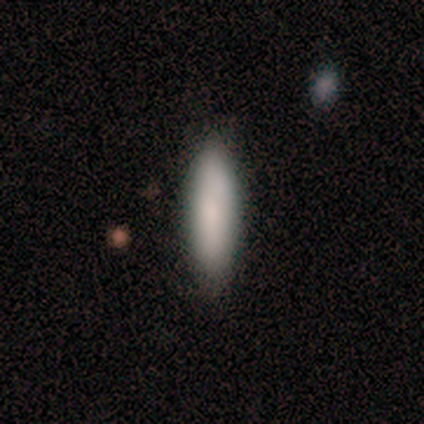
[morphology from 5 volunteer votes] This appears to be a smooth galaxy with no disk features (80%) that is in between round and cigar-shaped (75%). Merging: none (60%).